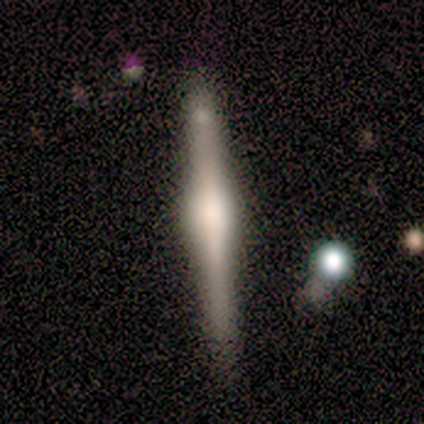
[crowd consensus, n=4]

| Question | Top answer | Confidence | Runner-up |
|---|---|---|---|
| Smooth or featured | featured or disk | 75% | smooth (25%) |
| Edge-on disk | yes | 100% | — |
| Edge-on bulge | boxy | 67% | rounded (33%) |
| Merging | none | 50% | tied: minor disturbance (50%) |